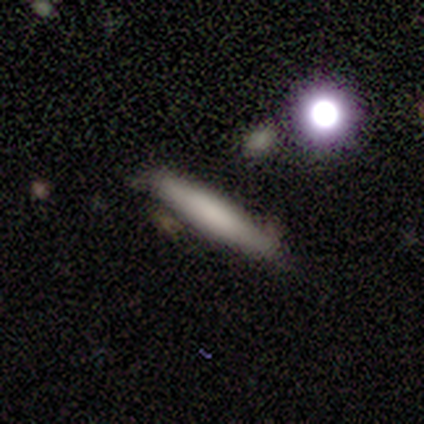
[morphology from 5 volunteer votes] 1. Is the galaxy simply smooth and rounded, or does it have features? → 80% smooth, 20% featured or disk, 0% star or artifact.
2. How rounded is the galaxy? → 100% cigar-shaped, 0% round, 0% in between.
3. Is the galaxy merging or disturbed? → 100% none, 0% minor disturbance, 0% major disturbance, 0% merger.